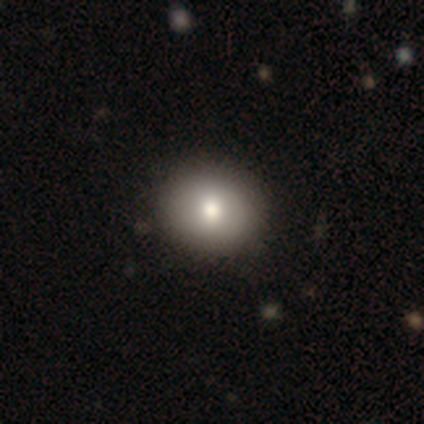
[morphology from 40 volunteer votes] Smooth or featured?
  - smooth: 82% *
  - star or artifact: 10%
  - featured or disk: 8%
How rounded?
  - round: 82% *
  - in between: 18%
  - cigar-shaped: 0%
Merging?
  - none: 72% *
  - minor disturbance: 3%
  - major disturbance: 0%
  - merger: 0%